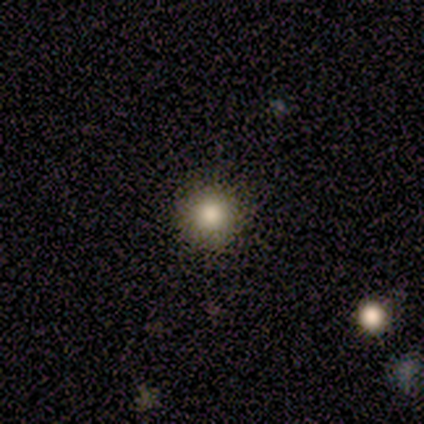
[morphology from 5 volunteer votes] smooth 100%, featured or disk 0%, star or artifact 0%. Down the decision tree: how rounded — round (100%); merging — none (100%).